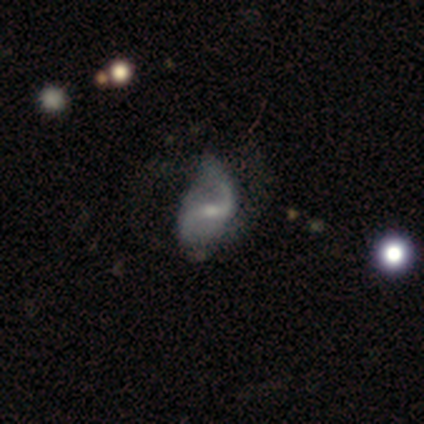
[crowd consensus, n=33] Volunteers were most divided on "merging": none: 39%, minor disturbance: 35%, major disturbance: 26%, merger: 0%. Remaining: edge-on disk — no (100%); spiral arms — yes (97%); spiral arm count — 2 (93%); smooth or featured — featured or disk (88%); spiral winding — loose (75%); bar — weak (55%); bulge size — small (48%).